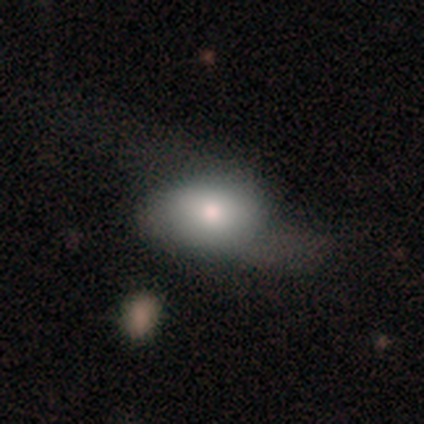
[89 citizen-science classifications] smooth 72%, featured or disk 24%, star or artifact 4%. Down the decision tree: how rounded — in between (88%); merging — none (41%).